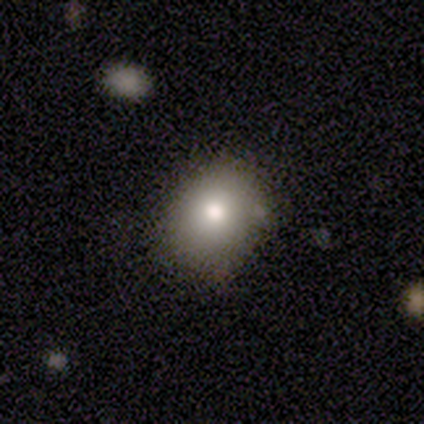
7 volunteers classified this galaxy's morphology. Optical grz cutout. It shows a smooth galaxy with no disk features (100%) that is in between round and cigar-shaped (57%). Merging: none (86%).